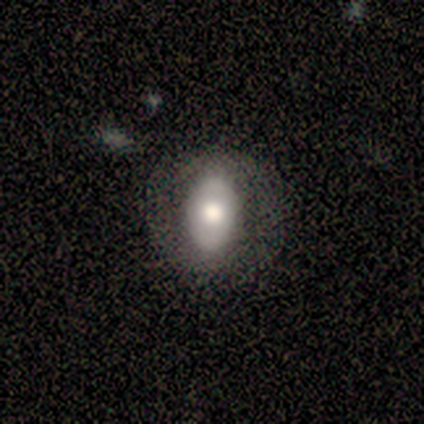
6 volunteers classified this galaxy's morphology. Smooth or featured? 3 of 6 (50%) said smooth. How rounded? 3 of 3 (100%) said in between. Merging? 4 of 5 (80%) said none.